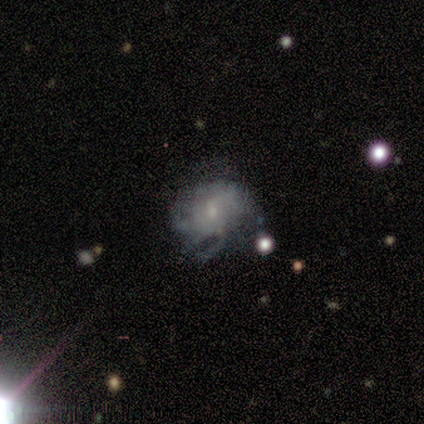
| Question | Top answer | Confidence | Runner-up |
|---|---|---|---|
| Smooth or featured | featured or disk | 80% | smooth (20%) |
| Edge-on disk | no | 100% | — |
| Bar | no | 92% | weak (8%) |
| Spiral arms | yes | 75% | no (25%) |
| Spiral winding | medium | 56% | loose (33%) |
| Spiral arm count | can't tell | 89% | 3 (11%) |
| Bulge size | small | 75% | moderate (17%) |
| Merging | none | 40% | major disturbance (33%) |